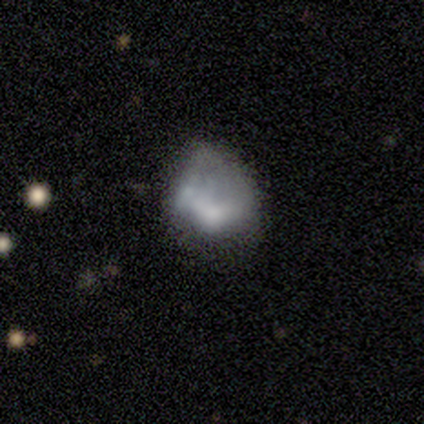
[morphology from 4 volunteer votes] This appears to be a featured or disk galaxy (50%) with no bar (100%), no spiral arms (100%) and no central bulge (100%). Merging: minor disturbance (100%).